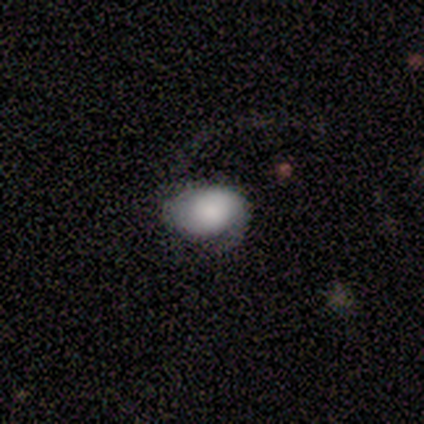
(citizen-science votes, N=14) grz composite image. It shows a smooth galaxy with no disk features (64%) that is in between round and cigar-shaped (89%). Merging: major disturbance (57%).